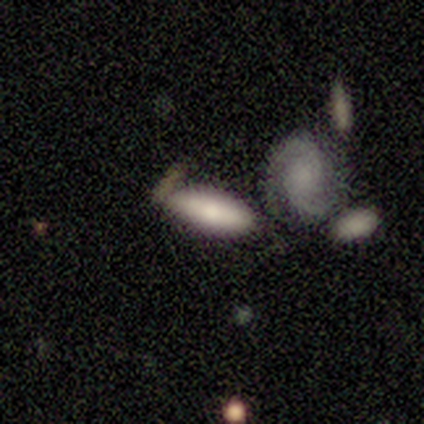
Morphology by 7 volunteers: A smooth galaxy with no disk features (71%) that is in between round and cigar-shaped (80%). Merging: none (57%).